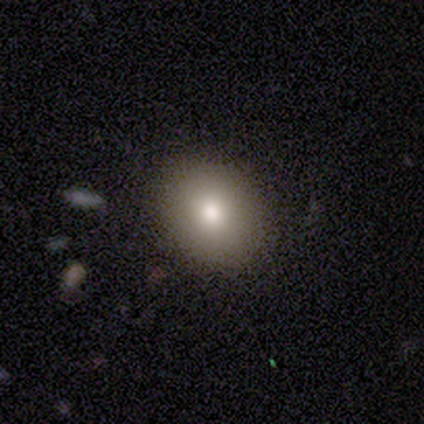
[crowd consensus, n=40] smooth 68%, featured or disk 22%, star or artifact 10%. Down the decision tree: how rounded — round (74%); merging — none (78%).